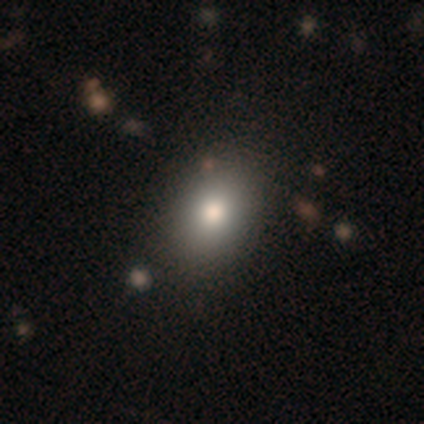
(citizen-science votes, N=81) A smooth galaxy with no disk features (84%) that is in between round and cigar-shaped (65%). Merging: none (48%).